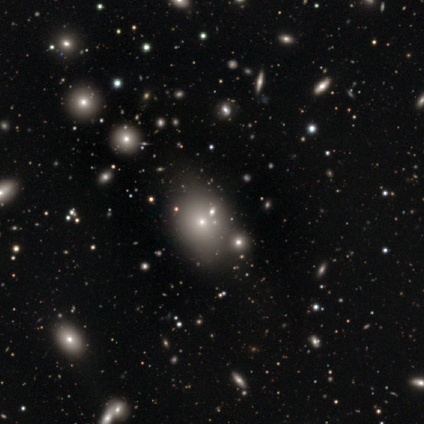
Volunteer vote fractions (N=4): star or artifact 75%, smooth 25%, featured or disk 0%.